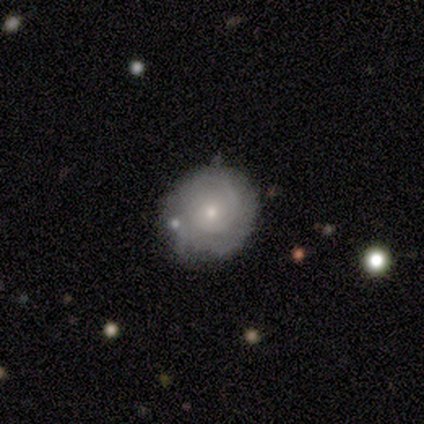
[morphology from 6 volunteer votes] Overall: featured or disk (100%). Edge-on disk: no (83%). Bar: no (100%). Spiral arms: yes (80%). Spiral arm count: 2 (50%, tied with can't tell). Spiral winding: medium (50%; tight 25%). Bulge size: small (60%; moderate 40%). Merging: none (67%; minor disturbance 33%).